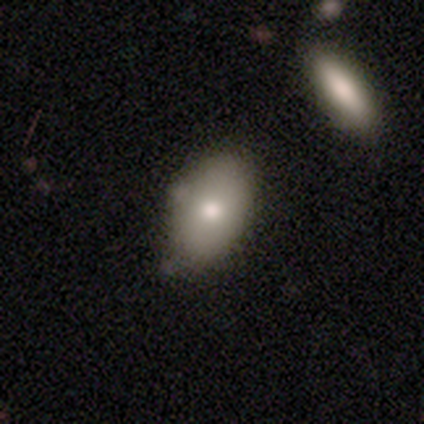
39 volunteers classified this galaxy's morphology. Volunteers were most divided on "merging": none: 43%, minor disturbance: 22%, merger: 16%, major disturbance: 3%. More confident: how rounded — in between (92%); smooth or featured — smooth (64%).